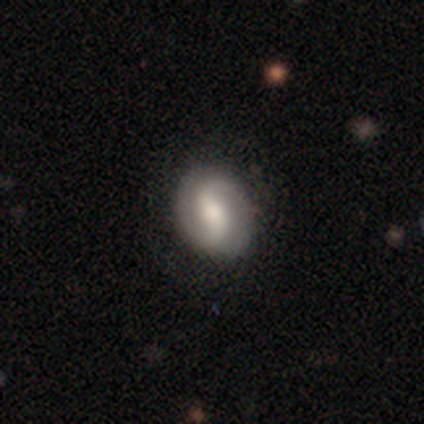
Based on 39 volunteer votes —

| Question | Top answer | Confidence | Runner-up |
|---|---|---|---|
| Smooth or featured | featured or disk | 67% | smooth (33%) |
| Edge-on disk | no | 100% | — |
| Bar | weak | 46% | no (31%) |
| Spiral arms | yes | 92% | no (8%) |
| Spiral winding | medium | 42% | tight (29%) |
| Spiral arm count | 2 | 92% | 1 (4%) |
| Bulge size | moderate | 46% | small (27%) |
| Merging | none | 90% | minor disturbance (5%) |